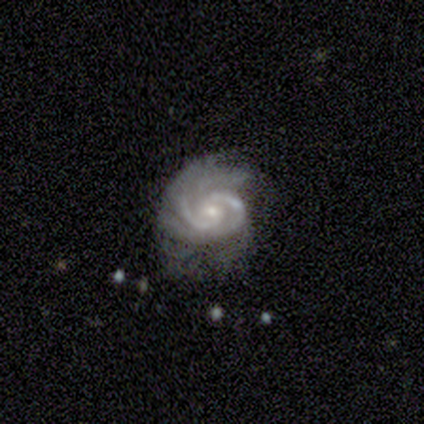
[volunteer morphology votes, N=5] This is clearly a featured or disk galaxy (100%). It is clearly not viewed edge-on (100%). Bar: likely weak (60%). Spiral arm pattern: clearly yes (100%). Spiral arm count: likely 2 (60%). Spiral winding: likely medium (60%). Central bulge: clearly small (80%). Merging: likely minor disturbance (60%).